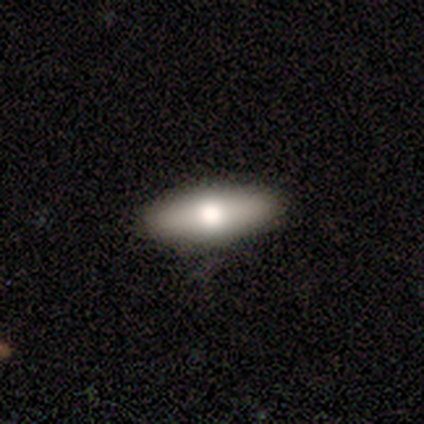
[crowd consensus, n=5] Q: Smooth or featured?
A: smooth (80%); runner-up: featured or disk (20%)
Q: How rounded?
A: in between (75%); runner-up: cigar-shaped (25%)
Q: Merging?
A: none (80%); runner-up: minor disturbance (20%)